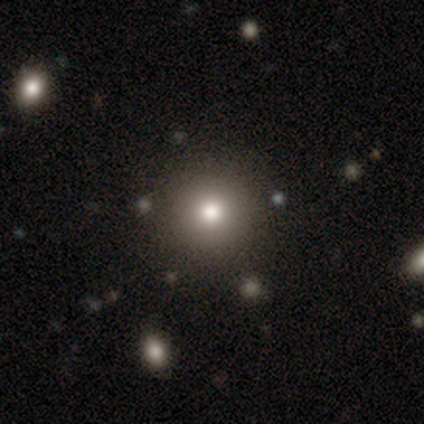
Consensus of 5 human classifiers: Overall: smooth (60%; star or artifact 40%). How rounded: round (100%). Merging: none (67%; minor disturbance 33%).